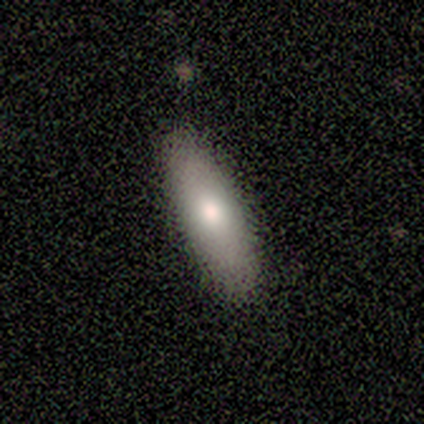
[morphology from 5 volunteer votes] Q: Smooth or featured?
A: smooth (60%); runner-up: featured or disk (40%)
Q: How rounded?
A: cigar-shaped (67%); runner-up: in between (33%)
Q: Merging?
A: none (80%); runner-up: minor disturbance (20%)